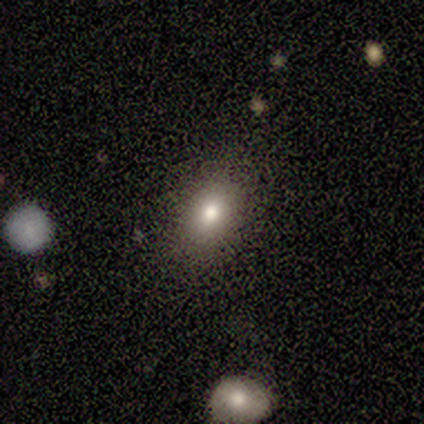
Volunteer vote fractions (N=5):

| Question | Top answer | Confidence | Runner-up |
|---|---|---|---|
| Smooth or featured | smooth | 80% | star or artifact (20%) |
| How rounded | in between | 100% | — |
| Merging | none | 100% | — |